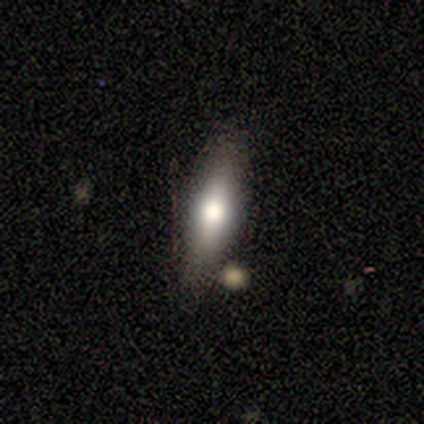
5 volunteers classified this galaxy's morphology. Smooth or featured?
  - smooth: 80% *
  - featured or disk: 20%
  - star or artifact: 0%
How rounded?
  - cigar-shaped: 75% *
  - in between: 25%
  - round: 0%
Merging?
  - none: 100% *
  - minor disturbance: 0%
  - major disturbance: 0%
  - merger: 0%